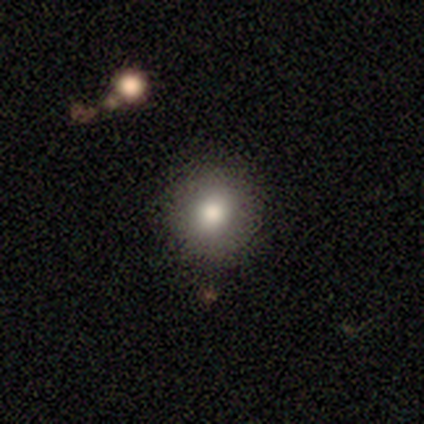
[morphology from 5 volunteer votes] smooth_or_featured: smooth (p=0.80) [alt: star or artifact p=0.20]
how_rounded: round (p=1.00)
merging: none (p=1.00)